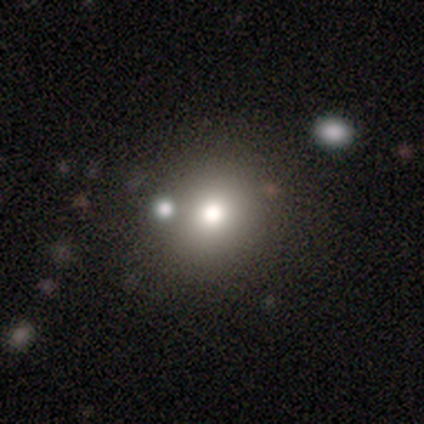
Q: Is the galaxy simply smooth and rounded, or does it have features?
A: smooth — 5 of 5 (100%).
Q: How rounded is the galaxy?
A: round — 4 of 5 (80%).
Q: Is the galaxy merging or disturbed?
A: none — 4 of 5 (80%).